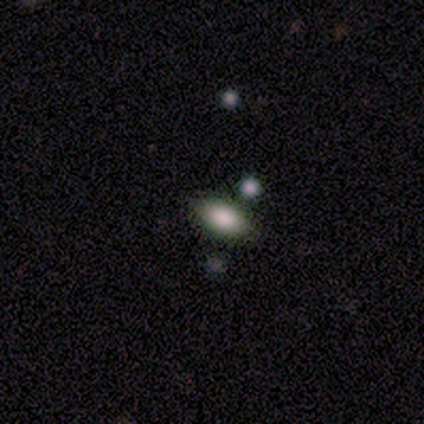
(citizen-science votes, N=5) Q: Smooth or featured?
A: smooth (60%); runner-up: star or artifact (40%)
Q: How rounded?
A: in between (100%)
Q: Merging?
A: none (100%)